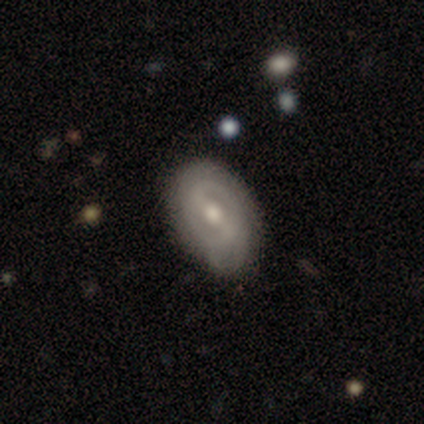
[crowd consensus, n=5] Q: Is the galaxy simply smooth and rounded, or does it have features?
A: featured or disk — 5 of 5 (100%).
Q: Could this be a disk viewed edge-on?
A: no — 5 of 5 (100%).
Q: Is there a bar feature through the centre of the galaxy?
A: strong — 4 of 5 (80%).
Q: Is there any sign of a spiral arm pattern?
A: yes — 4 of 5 (80%).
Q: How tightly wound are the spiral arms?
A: tight — 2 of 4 (50%).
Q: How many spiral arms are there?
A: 2 — 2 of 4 (50%).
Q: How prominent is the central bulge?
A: moderate — 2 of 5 (40%, tied with small).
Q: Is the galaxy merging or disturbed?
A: minor disturbance — 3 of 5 (60%).